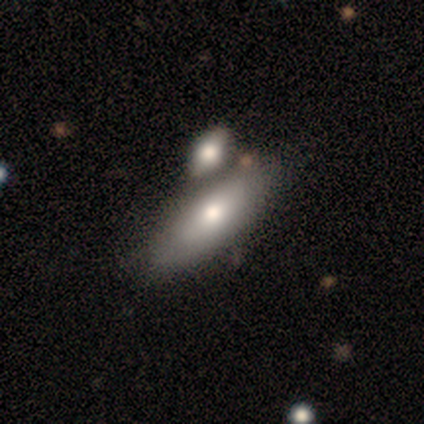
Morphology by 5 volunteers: A smooth galaxy with no disk features (80%) that is in between round and cigar-shaped (75%). Merging: merger (100%).